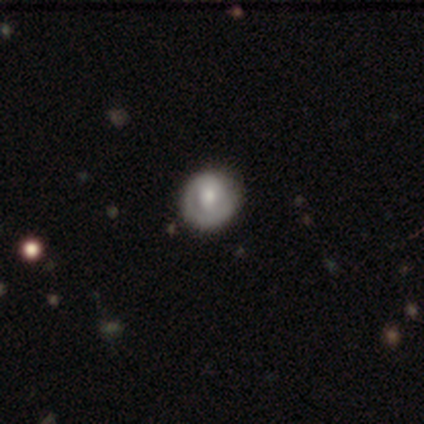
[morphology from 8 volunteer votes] Volunteers were most divided on "smooth or featured": smooth: 50%, featured or disk: 38%, star or artifact: 12%. More confident: how rounded — round (100%); merging — none (57%).